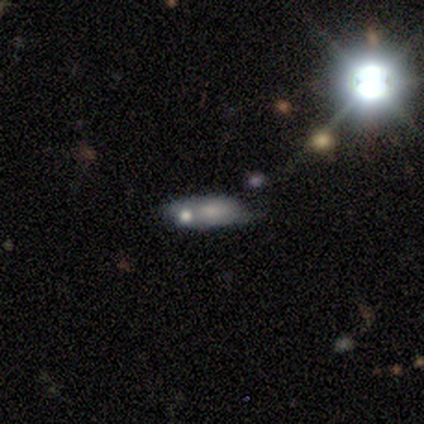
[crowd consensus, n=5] A smooth galaxy with no disk features (60%) that is in between round and cigar-shaped (67%). Merging: none (60%).